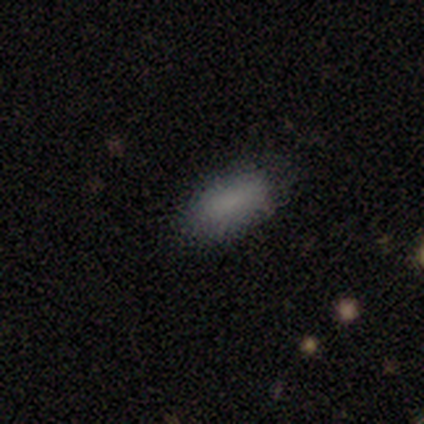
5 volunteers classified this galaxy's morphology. Smooth or featured? 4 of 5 (80%) said smooth. How rounded? 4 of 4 (100%) said in between. Merging? 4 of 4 (100%) said none.